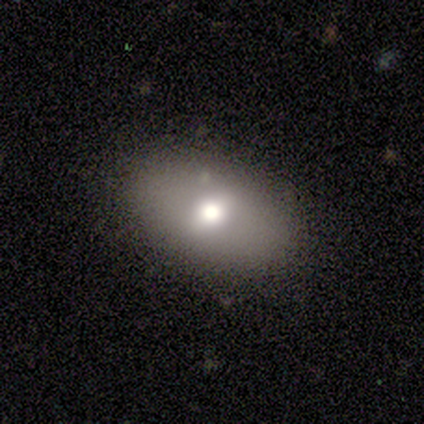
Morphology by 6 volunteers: smooth 67%, featured or disk 33%, star or artifact 0%. Down the decision tree: how rounded — in between (75%); merging — none (67%).